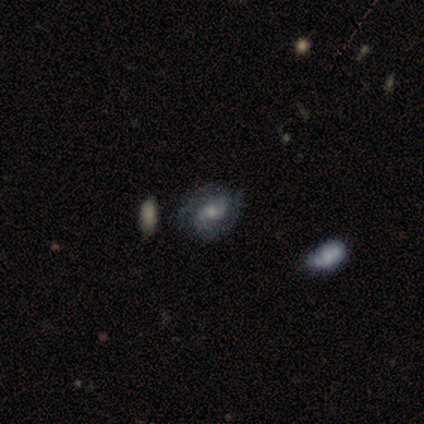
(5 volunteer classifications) Smooth or featured? featured or disk (80%)
Edge-on disk? no (100%)
Bar? weak (50%, tied with no)
Spiral arms? yes (75%)
Spiral winding? tight (67%)
Spiral arm count? 2 (100%)
Bulge size? moderate (50%)
Merging? none (80%)